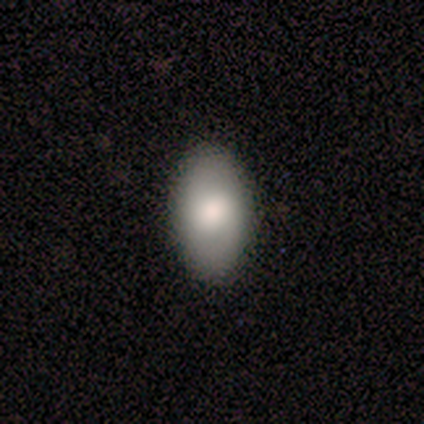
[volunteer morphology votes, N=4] Smooth or featured? 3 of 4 (75%) said smooth. How rounded? 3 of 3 (100%) said in between. Merging? 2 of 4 (50%, tied with minor disturbance) said none.